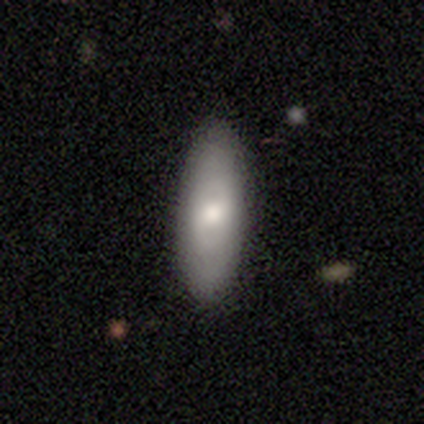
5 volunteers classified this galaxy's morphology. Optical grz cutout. It shows a featured or disk galaxy (60%) with no bar (67%), no spiral arms (100%) and a moderate central bulge (67%). Merging: none (100%).